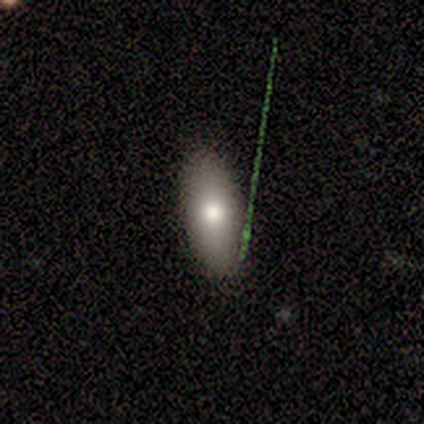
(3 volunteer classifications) featured or disk 67%, smooth 33%, star or artifact 0%. Down the decision tree: edge-on disk — yes (100%); edge-on bulge — boxy (50%, tied with rounded); merging — none (67%).